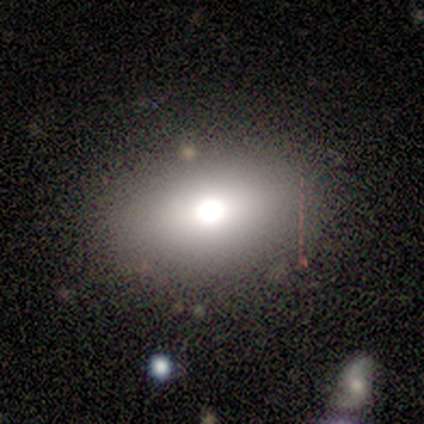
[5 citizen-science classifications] Overall: smooth (100%). How rounded: in between (80%). Merging: none (100%).